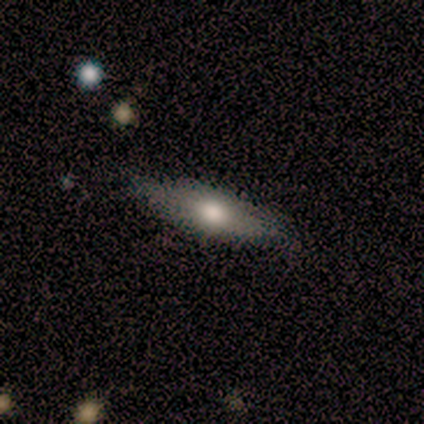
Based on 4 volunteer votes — smooth_or_featured: smooth (p=0.75) [alt: featured or disk p=0.25]
how_rounded: in between (p=0.67) [alt: cigar-shaped p=0.33]
merging: none (p=1.00)